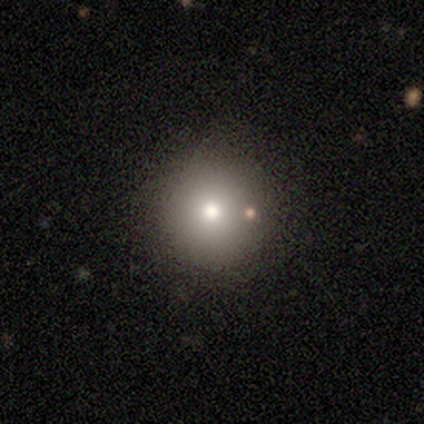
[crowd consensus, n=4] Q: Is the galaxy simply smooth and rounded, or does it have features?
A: smooth — 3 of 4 (75%).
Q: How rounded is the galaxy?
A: round — 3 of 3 (100%).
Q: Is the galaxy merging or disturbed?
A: none — 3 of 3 (100%).